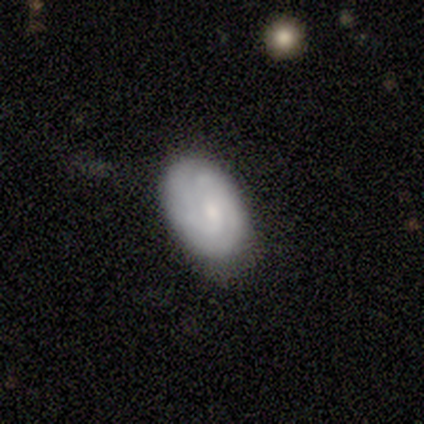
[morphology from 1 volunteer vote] Smooth or featured? featured or disk (100%)
Edge-on disk? no (100%)
Bar? weak (100%)
Spiral arms? yes (100%)
Spiral winding? tight (100%)
Spiral arm count? 2 (100%)
Bulge size? moderate (100%)
Merging? none (100%)